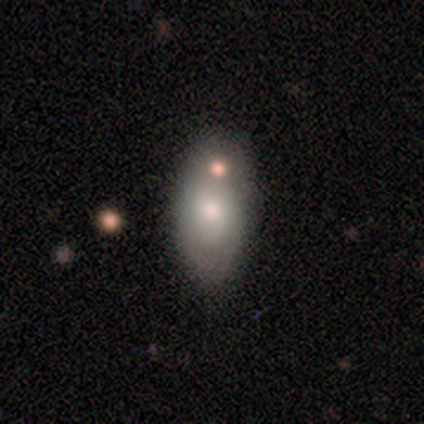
Morphology: type=smooth (73%); roundness=in between (87%); merging=none (55%).